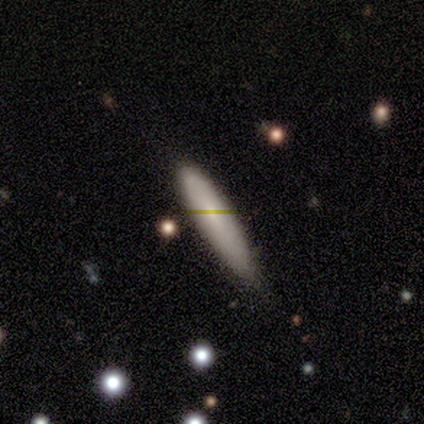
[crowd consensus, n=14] This is likely a smooth galaxy (79%). How rounded: likely cigar-shaped (73%). Merging: likely minor disturbance (64%).